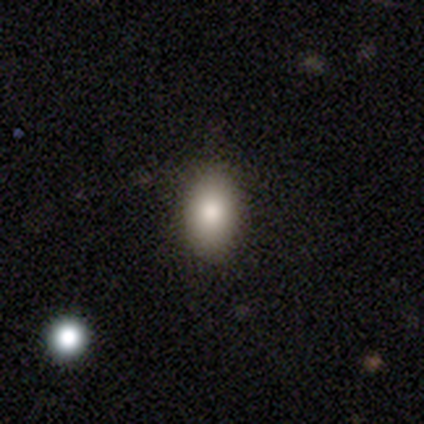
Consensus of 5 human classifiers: Smooth or featured?
  - smooth: 80% *
  - featured or disk: 20%
  - star or artifact: 0%
How rounded?
  - in between: 100% *
  - round: 0%
  - cigar-shaped: 0%
Merging?
  - none: 60% *
  - minor disturbance: 20%
  - major disturbance: 20%
  - merger: 0%